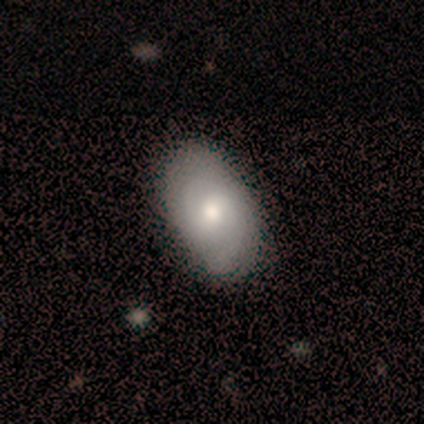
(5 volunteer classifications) smooth_or_featured: featured or disk (p=0.60) [alt: smooth p=0.20]
disk_edge_on: no (p=1.00)
bar: no (p=0.67) [alt: weak p=0.33]
has_spiral_arms: no (p=0.67) [alt: yes p=0.33]
bulge_size: large (p=0.67) [alt: moderate p=0.33]
merging: none (p=0.50) [tied with: minor disturbance p=0.50]